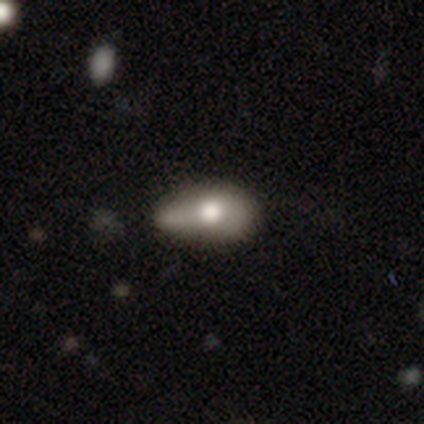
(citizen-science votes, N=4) Smooth or featured: smooth — 100%
How rounded: in between — 100%
Merging: minor disturbance — 50% (major disturbance — 25%)